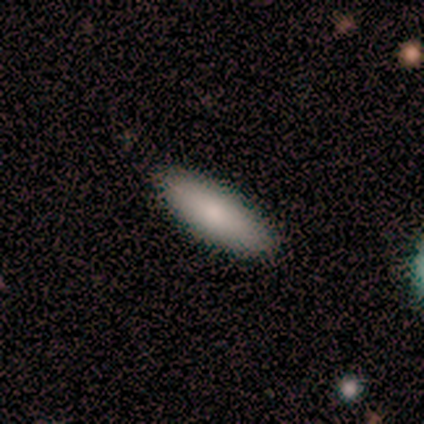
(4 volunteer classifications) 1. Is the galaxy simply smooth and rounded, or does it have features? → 50% smooth (tied), 50% featured or disk (tied), 0% star or artifact.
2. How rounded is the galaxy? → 50% in between (tied), 50% cigar-shaped (tied), 0% round.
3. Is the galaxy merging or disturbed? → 100% none, 0% minor disturbance, 0% major disturbance, 0% merger.